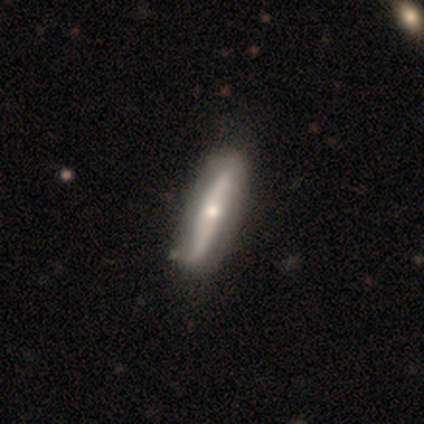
Morphology: type=featured or disk (43%); edge-on=yes (67%); edge-on bulge=rounded (100%); merging=none (80%).